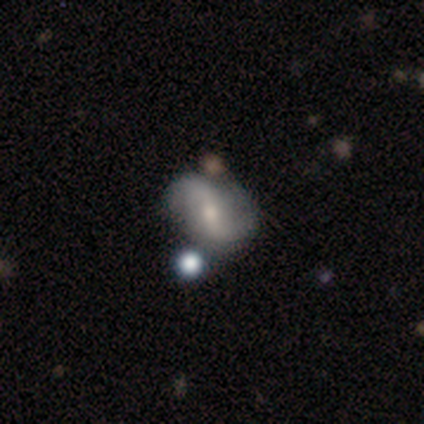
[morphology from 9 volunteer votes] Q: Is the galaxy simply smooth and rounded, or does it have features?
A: featured or disk — 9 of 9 (100%).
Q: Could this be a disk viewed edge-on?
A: no — 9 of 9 (100%).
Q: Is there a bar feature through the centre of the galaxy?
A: weak — 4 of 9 (44%, tied with no).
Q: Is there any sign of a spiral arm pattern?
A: yes — 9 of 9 (100%).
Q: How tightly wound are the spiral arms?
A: loose — 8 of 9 (89%).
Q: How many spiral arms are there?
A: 2 — 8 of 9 (89%).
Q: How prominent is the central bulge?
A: small — 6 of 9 (67%).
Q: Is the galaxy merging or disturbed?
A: minor disturbance — 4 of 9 (44%).